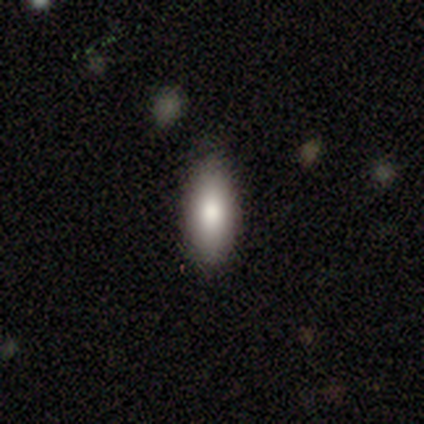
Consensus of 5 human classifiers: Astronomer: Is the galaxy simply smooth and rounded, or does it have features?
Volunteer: smooth — 80%.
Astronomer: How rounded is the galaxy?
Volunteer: in between — 100%.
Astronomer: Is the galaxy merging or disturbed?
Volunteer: none — 80%.